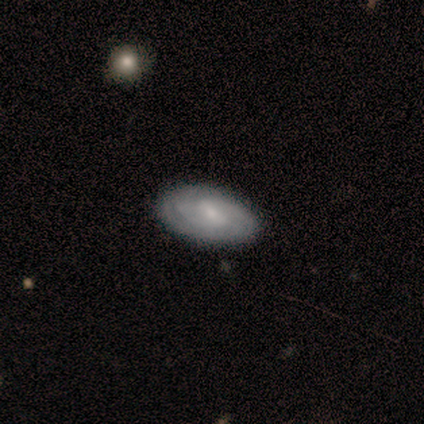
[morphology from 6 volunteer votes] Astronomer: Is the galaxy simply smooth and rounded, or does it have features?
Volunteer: smooth — 67%.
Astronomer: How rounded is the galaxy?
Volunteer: in between — 100%.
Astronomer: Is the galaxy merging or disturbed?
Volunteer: none — 100%.